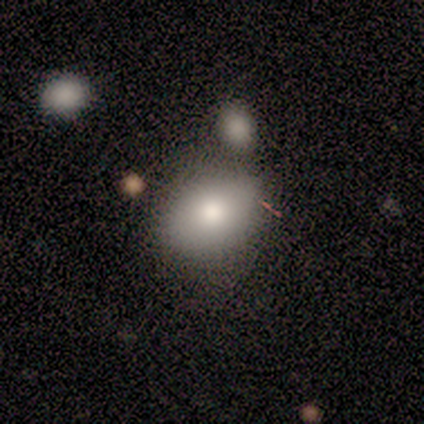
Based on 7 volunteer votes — Overall: smooth (86%). How rounded: in between (67%; round 33%). Merging: none (57%; minor disturbance 29%).